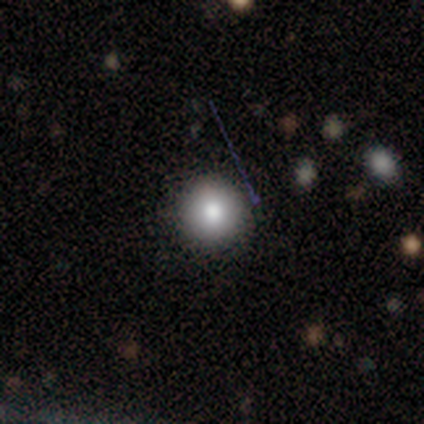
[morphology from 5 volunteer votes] A smooth galaxy with no disk features (100%) that is round (100%). Merging: none (100%).